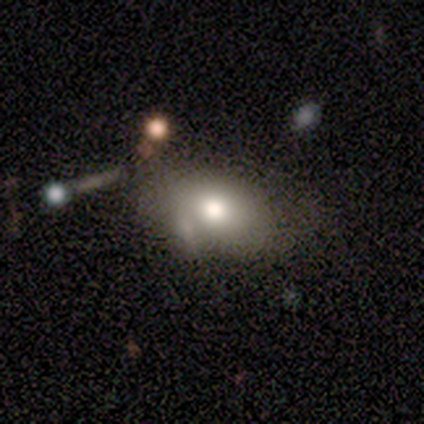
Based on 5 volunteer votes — Smooth or featured? smooth (80%)
How rounded? in between (100%)
Merging? none (40%)